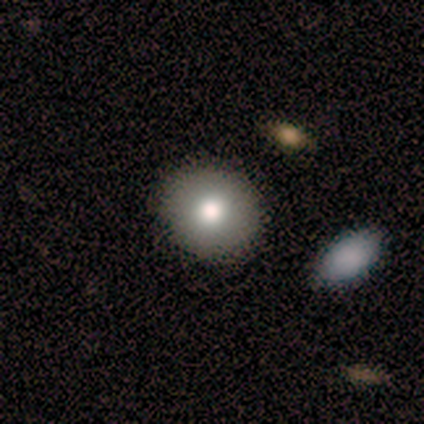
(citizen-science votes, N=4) Volunteers were most divided on "smooth or featured": smooth: 50%, featured or disk: 25%, star or artifact: 25%. More confident: how rounded — round (100%); merging — none (67%).